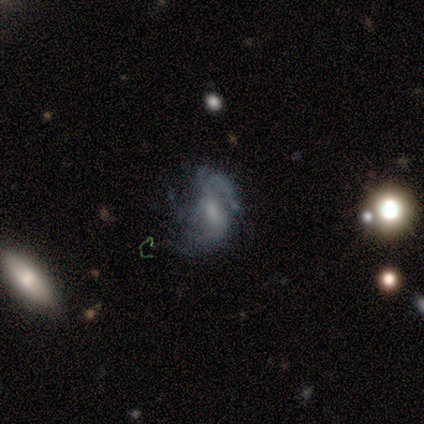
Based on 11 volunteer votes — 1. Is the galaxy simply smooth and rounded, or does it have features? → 100% featured or disk, 0% smooth, 0% star or artifact.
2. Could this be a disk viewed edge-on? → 100% no, 0% yes.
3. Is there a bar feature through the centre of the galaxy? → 55% weak, 27% no, 18% strong.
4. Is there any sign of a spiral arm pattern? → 91% yes, 9% no.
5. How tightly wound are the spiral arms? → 50% medium, 40% loose, 10% tight.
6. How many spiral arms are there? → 60% 2, 40% can't tell, 0% 1, 0% 3, 0% 4, 0% more than 4.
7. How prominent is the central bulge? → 45% moderate, 27% none, 18% small, 9% large, 0% dominant.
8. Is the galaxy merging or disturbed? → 55% none, 36% minor disturbance, 9% major disturbance, 0% merger.